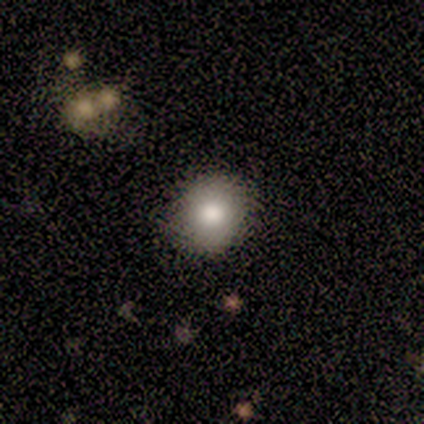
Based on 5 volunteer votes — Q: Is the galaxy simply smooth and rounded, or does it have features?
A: smooth — 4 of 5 (80%).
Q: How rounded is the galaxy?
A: round — 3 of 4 (75%).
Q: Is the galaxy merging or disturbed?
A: none — 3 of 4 (75%).